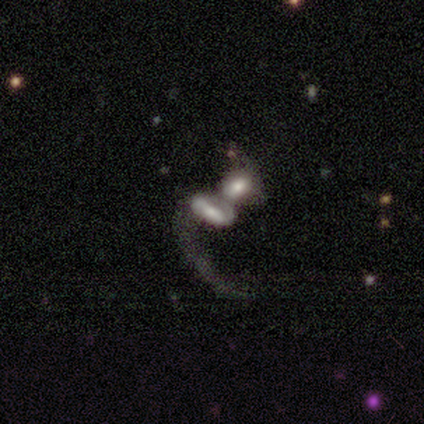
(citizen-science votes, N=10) Smooth or featured?
  - featured or disk: 70% *
  - smooth: 30%
  - star or artifact: 0%
Edge-on disk?
  - no: 100% *
  - yes: 0%
Bar?
  - no: 43% *
  - strong: 29%
  - weak: 29%
Spiral arms?
  - yes: 86% *
  - no: 14%
Spiral winding?
  - loose: 100% *
  - tight: 0%
  - medium: 0%
Spiral arm count?
  - 1: 67% *
  - 2: 33%
  - 3: 0%
  - 4: 0%
  - more than 4: 0%
  - can't tell: 0%
Bulge size?
  - large: 57% *
  - moderate: 29%
  - none: 14%
  - dominant: 0%
  - small: 0%
Merging?
  - merger: 80% *
  - none: 10%
  - major disturbance: 10%
  - minor disturbance: 0%